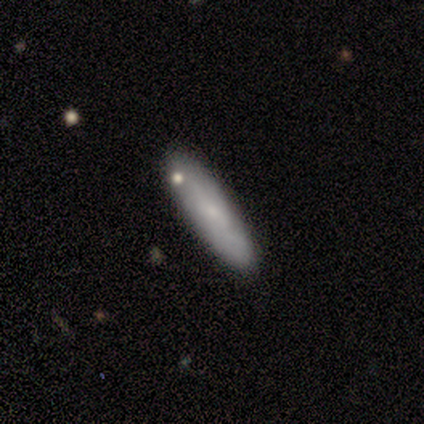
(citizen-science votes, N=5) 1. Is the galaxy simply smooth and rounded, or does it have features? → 100% smooth, 0% featured or disk, 0% star or artifact.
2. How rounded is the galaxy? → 80% cigar-shaped, 20% in between, 0% round.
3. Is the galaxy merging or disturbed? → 100% none, 0% minor disturbance, 0% major disturbance, 0% merger.